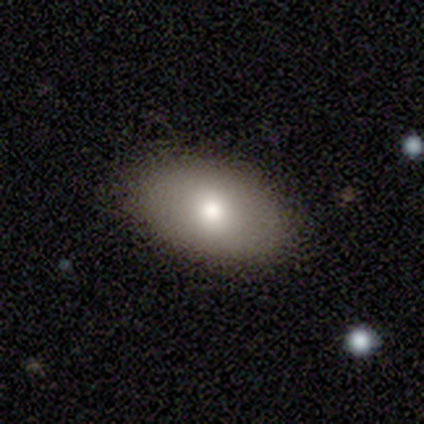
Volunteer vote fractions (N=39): Q: Smooth or featured?
A: smooth (82%); runner-up: featured or disk (10%)
Q: How rounded?
A: in between (91%); runner-up: round (9%)
Q: Merging?
A: none (89%); runner-up: minor disturbance (6%)